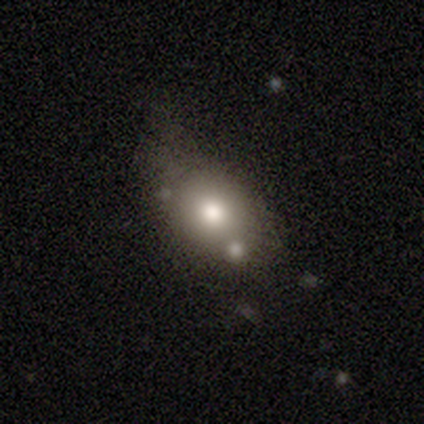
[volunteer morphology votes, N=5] A smooth galaxy with no disk features (100%) that is in between round and cigar-shaped (60%). Merging: none (40%).